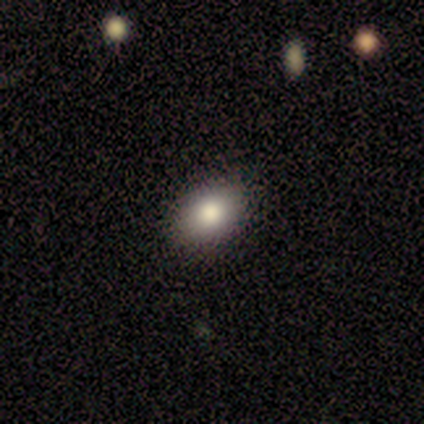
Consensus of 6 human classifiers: A smooth galaxy with no disk features (100%) that is in between round and cigar-shaped (83%). Merging: none (83%).